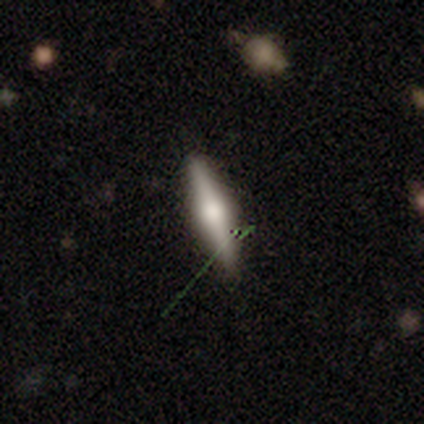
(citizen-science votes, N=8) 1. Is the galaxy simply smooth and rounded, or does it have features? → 62% featured or disk, 38% smooth, 0% star or artifact.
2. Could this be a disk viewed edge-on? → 100% yes, 0% no.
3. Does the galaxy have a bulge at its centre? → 100% rounded, 0% boxy, 0% none.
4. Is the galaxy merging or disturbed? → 88% none, 12% minor disturbance, 0% major disturbance, 0% merger.